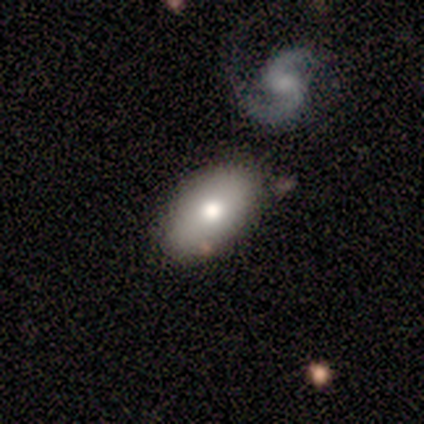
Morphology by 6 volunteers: Overall: smooth (83%). How rounded: in between (100%). Merging: none (80%).